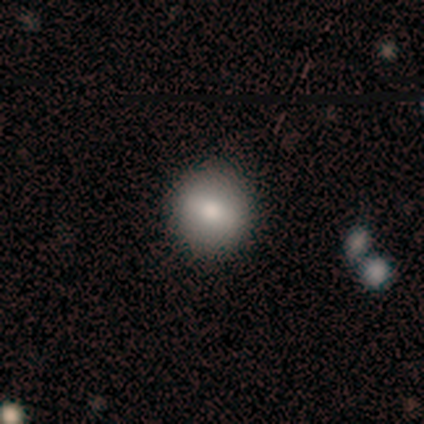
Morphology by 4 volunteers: This appears to be a smooth galaxy with no disk features (100%) that is round (75%). Merging: none (100%).